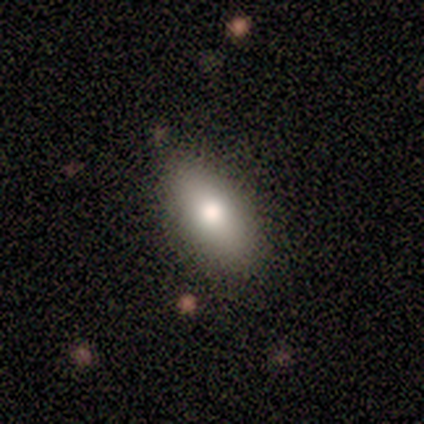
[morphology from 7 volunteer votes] Smooth or featured? smooth (86%)
How rounded? in between (83%)
Merging? none (86%)